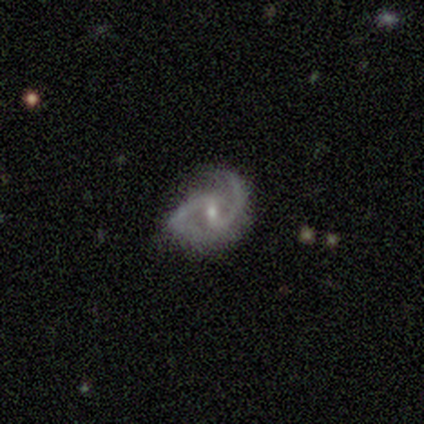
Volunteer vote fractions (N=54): smooth_or_featured: featured or disk (p=0.96) [alt: star or artifact p=0.04]
disk_edge_on: no (p=0.96) [alt: yes p=0.04]
bar: weak (p=0.62) [alt: no p=0.20]
has_spiral_arms: yes (p=0.98) [alt: no p=0.02]
spiral_winding: medium (p=0.61) [alt: loose p=0.33]
spiral_arm_count: 2 (p=1.00)
bulge_size: small (p=0.56) [alt: moderate p=0.42]
merging: none (p=0.69) [alt: minor disturbance p=0.17]